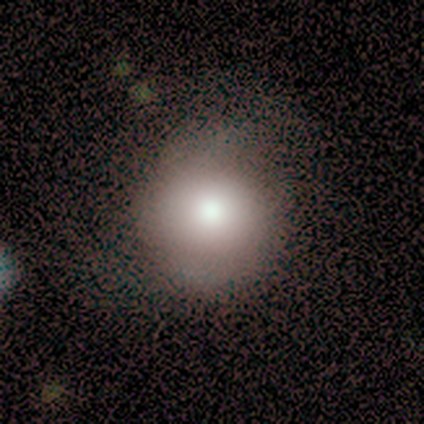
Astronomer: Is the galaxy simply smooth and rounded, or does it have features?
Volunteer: smooth — 80%.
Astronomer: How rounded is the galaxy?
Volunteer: round — 94%.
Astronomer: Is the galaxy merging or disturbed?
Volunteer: none — 60%.